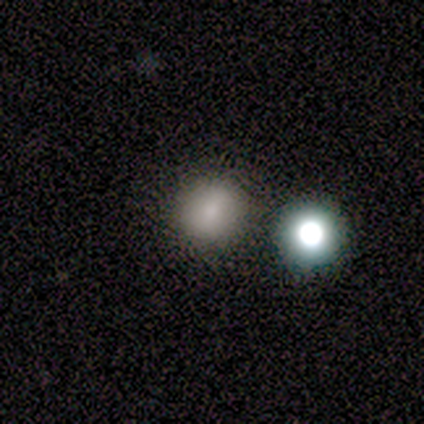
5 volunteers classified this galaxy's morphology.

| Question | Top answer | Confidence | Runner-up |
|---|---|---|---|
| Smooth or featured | smooth | 80% | star or artifact (20%) |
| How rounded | round | 100% | — |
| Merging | none | 50% | major disturbance (25%) |